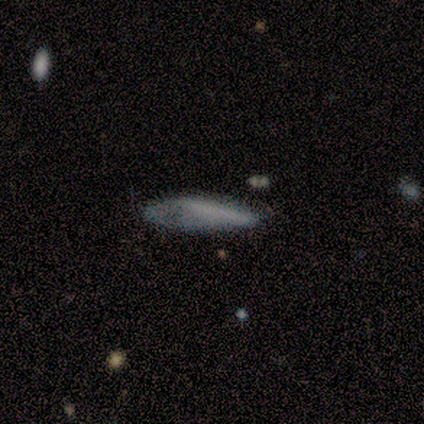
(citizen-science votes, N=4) Smooth or featured?
  - smooth: 100% *
  - featured or disk: 0%
  - star or artifact: 0%
How rounded?
  - in between: 50% * (tied)
  - cigar-shaped: 50% * (tied)
  - round: 0%
Merging?
  - none: 75% *
  - minor disturbance: 25%
  - major disturbance: 0%
  - merger: 0%